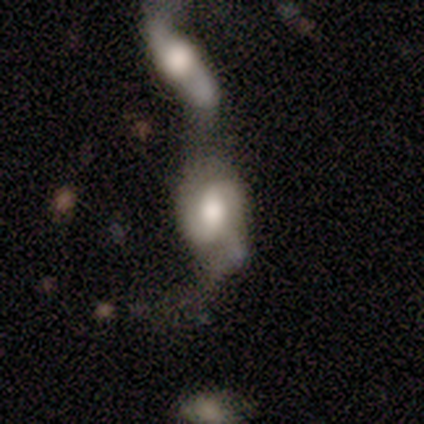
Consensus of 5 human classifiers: This is clearly a featured or disk galaxy (80%). It is clearly not viewed edge-on (100%). Bar: likely no (75%). Spiral arm pattern: likely yes (75%). Spiral arm count: clearly 2 (100%). Spiral winding: likely medium (67%). Central bulge: possibly moderate (50%). Merging: likely merger (60%).